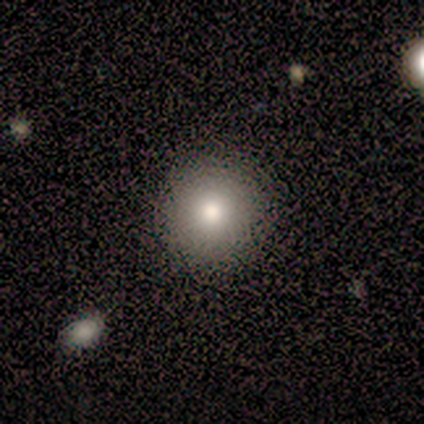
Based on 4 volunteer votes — smooth-or-featured: smooth: 100% | featured or disk: 0% | star or artifact: 0%
  how-rounded: round: 75% | in between: 25% | cigar-shaped: 0%
  merging: none: 100% | minor disturbance: 0% | major disturbance: 0% | merger: 0%